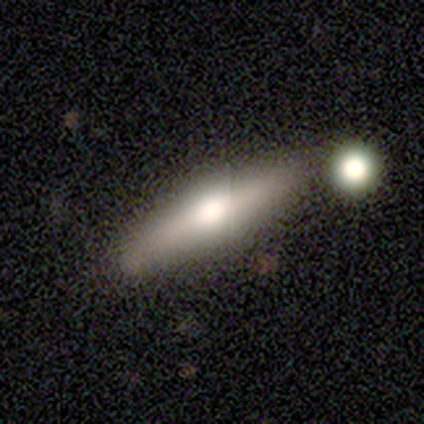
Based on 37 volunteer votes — Overall: smooth (59%; featured or disk 35%). How rounded: cigar-shaped (82%). Merging: none (51%; merger 20%).